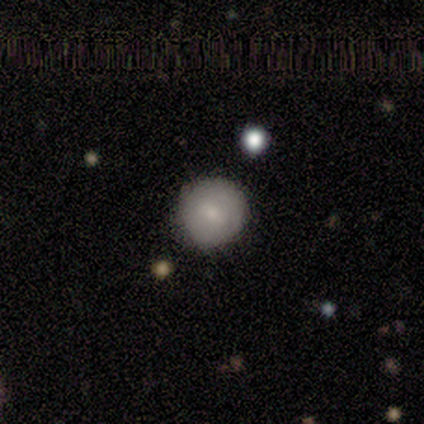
Consensus on every question: smooth or featured — star or artifact (100%).